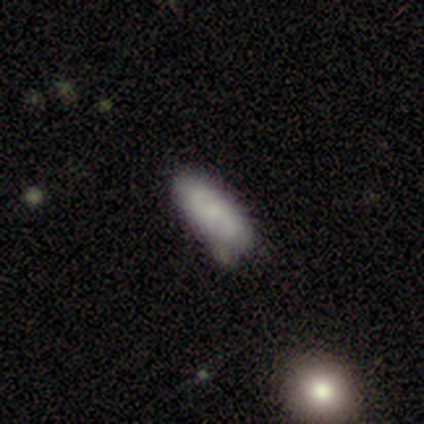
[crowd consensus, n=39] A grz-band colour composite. It shows a smooth galaxy with no disk features (62%) that is in between round and cigar-shaped (75%). Merging: none (54%).